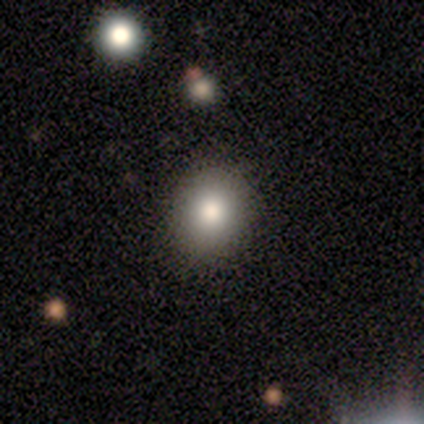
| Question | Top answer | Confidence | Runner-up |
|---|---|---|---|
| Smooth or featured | smooth | 100% | — |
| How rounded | round | 80% | in between (20%) |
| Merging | none | 100% | — |